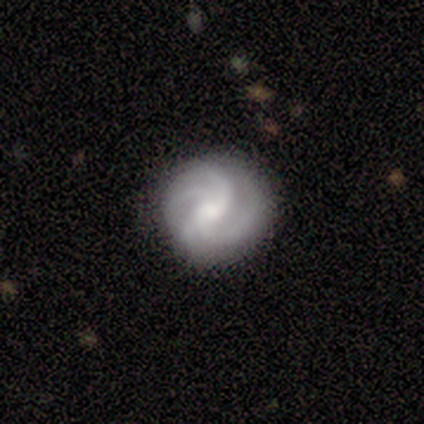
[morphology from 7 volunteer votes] Volunteers were most divided on "bar" (2-way tie): weak: 40%, no: 40%, strong: 20%; "spiral winding" (2-way tie): tight: 40%, medium: 40%, loose: 20%. Remaining: edge-on disk — no (100%); spiral arms — yes (100%); smooth or featured — featured or disk (71%); merging — none (57%); spiral arm count — 3 (40%); bulge size — small (40%).